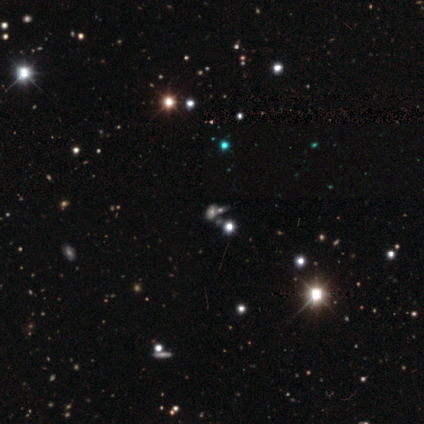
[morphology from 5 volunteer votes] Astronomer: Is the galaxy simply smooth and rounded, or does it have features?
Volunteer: star or artifact — 60%.